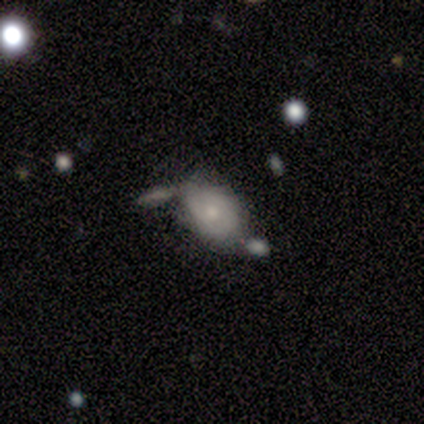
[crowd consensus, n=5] smooth-or-featured: smooth: 40% (tied) | featured or disk: 40% (tied) | star or artifact: 20%
  how-rounded: round: 50% (tied) | in between: 50% (tied) | cigar-shaped: 0%
  merging: none: 50% (tied) | minor disturbance: 50% (tied) | major disturbance: 0% | merger: 0%